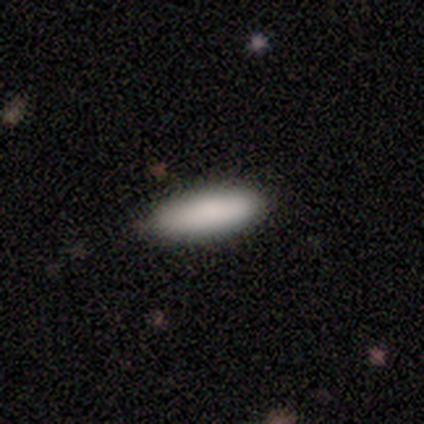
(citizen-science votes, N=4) Q: Smooth or featured?
A: smooth (100%)
Q: How rounded?
A: in between (50%); tied with: cigar-shaped (50%)
Q: Merging?
A: none (100%)